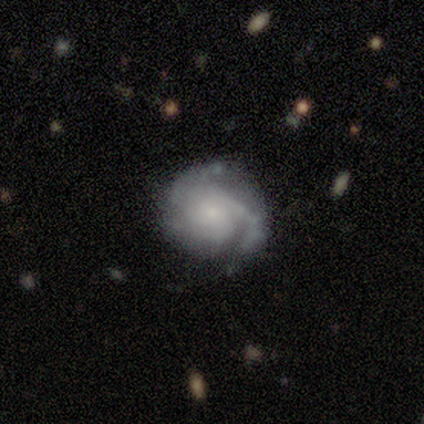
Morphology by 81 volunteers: This is clearly a featured or disk galaxy (84%). It is clearly not viewed edge-on (99%). Bar: clearly no (93%). Spiral arm pattern: clearly yes (93%). Spiral arm count: marginally 2 (34%). Spiral winding: possibly tight (58%). Central bulge: clearly small (81%). Merging: marginally none (33%).